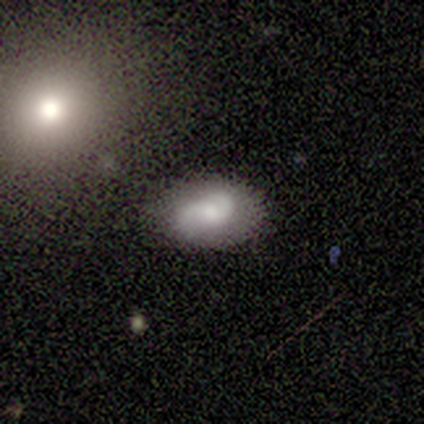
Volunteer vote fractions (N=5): smooth_or_featured: featured or disk (p=0.60) [alt: smooth p=0.20]
disk_edge_on: no (p=1.00)
bar: no (p=0.67) [alt: weak p=0.33]
has_spiral_arms: yes (p=0.67) [alt: no p=0.33]
spiral_winding: medium (p=0.50) [tied with: loose p=0.50]
spiral_arm_count: 2 (p=1.00)
bulge_size: moderate (p=0.67) [alt: small p=0.33]
merging: none (p=0.75) [alt: minor disturbance p=0.25]